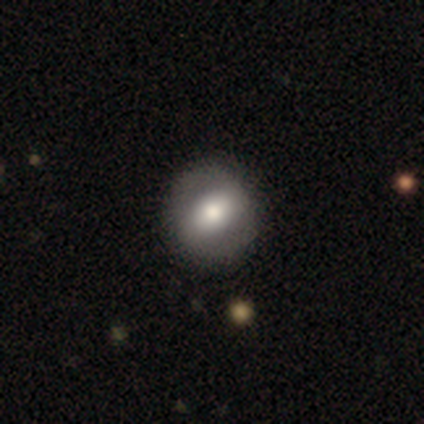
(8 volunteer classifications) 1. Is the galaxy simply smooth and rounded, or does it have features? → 62% featured or disk, 38% smooth, 0% star or artifact.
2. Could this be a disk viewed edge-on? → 80% no, 20% yes.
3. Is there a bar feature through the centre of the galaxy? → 50% weak, 25% strong, 25% no.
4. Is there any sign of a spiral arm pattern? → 100% no, 0% yes.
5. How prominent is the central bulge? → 75% moderate, 25% small, 0% dominant, 0% large, 0% none.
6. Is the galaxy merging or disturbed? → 100% none, 0% minor disturbance, 0% major disturbance, 0% merger.